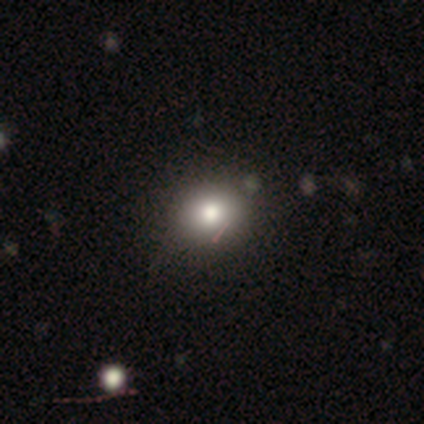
smooth 76%, star or artifact 18%, featured or disk 5%. Down the decision tree: how rounded — round (76%); merging — none (87%).